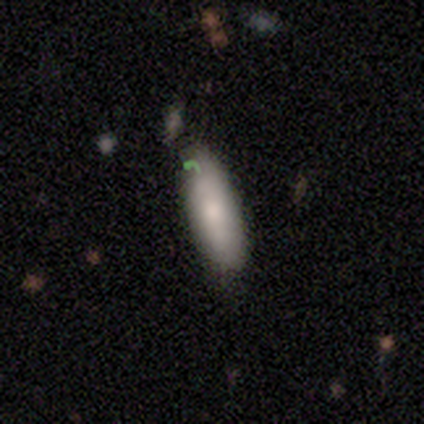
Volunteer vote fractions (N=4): Smooth or featured? smooth (50%, tied with featured or disk)
How rounded? in between (100%)
Merging? none (100%)